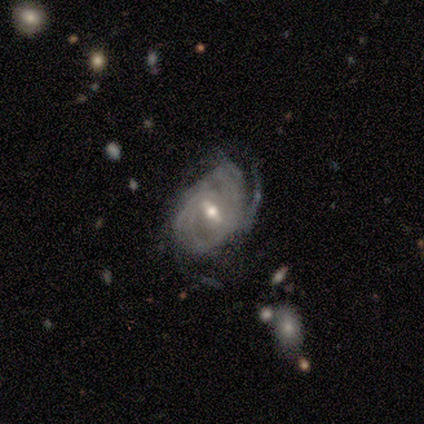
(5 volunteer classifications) Smooth or featured? featured or disk (80%)
Edge-on disk? no (75%)
Bar? weak (67%)
Spiral arms? yes (100%)
Spiral winding? tight (100%)
Spiral arm count? 3 (33%, tied with more than 4 and can't tell)
Bulge size? moderate (67%)
Merging? none (60%)